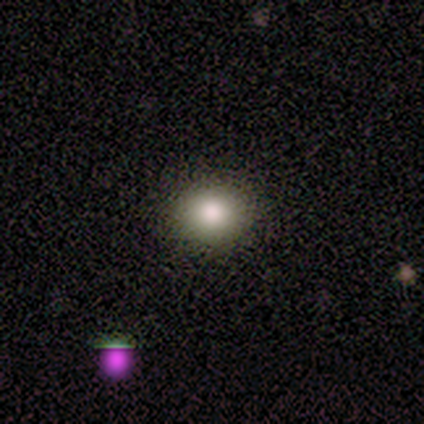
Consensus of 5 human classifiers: Smooth or featured?
  - smooth: 100% *
  - featured or disk: 0%
  - star or artifact: 0%
How rounded?
  - in between: 60% *
  - round: 40%
  - cigar-shaped: 0%
Merging?
  - none: 100% *
  - minor disturbance: 0%
  - major disturbance: 0%
  - merger: 0%